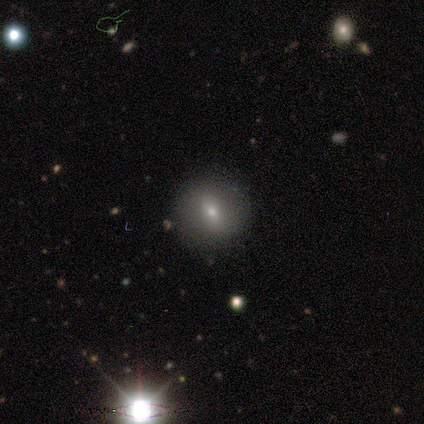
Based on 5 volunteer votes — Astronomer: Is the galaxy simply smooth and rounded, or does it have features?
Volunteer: smooth — 60%.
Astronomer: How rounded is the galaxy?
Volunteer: round — 100%.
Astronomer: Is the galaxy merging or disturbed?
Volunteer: none — 100%.